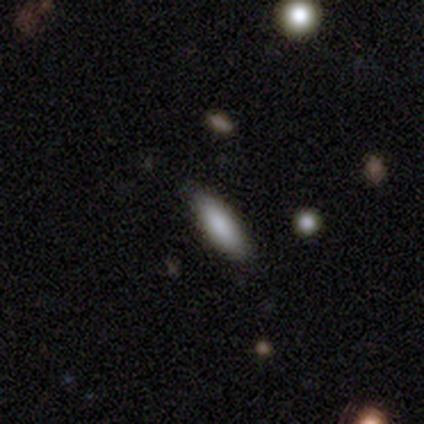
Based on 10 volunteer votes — Smooth or featured? smooth (90%)
How rounded? in between (67%)
Merging? none (90%)